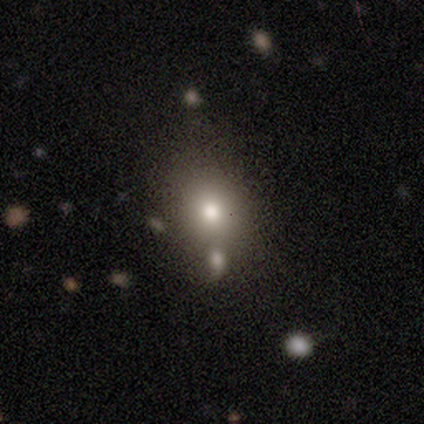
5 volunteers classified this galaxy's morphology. Smooth or featured: smooth — 40% (tied with featured or disk — 40%)
How rounded: round — 50% (tied with in between — 50%)
Merging: minor disturbance — 50% (none — 25%)